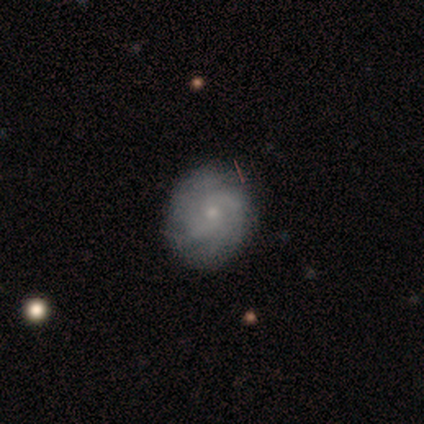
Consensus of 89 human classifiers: featured or disk 71%, smooth 24%, star or artifact 6%. Down the decision tree: edge-on disk — no (98%); bar — no (77%); spiral arms — yes (85%); spiral arm count — can't tell (45%); spiral winding — tight (68%); bulge size — small (79%); merging — none (76%).